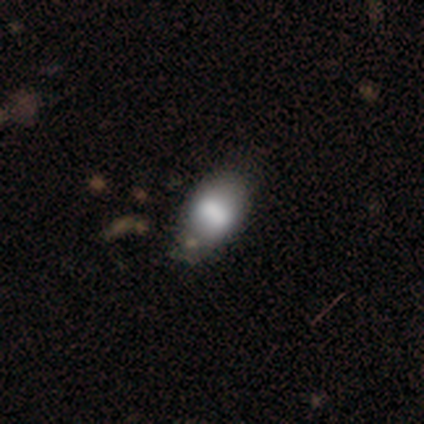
This is likely a smooth galaxy (75%). How rounded: likely in between (73%). Merging: possibly none (59%).